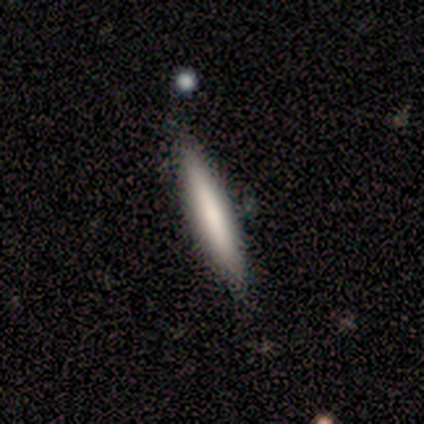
This is likely a smooth galaxy (69%). How rounded: clearly cigar-shaped (88%). Merging: clearly none (97%).